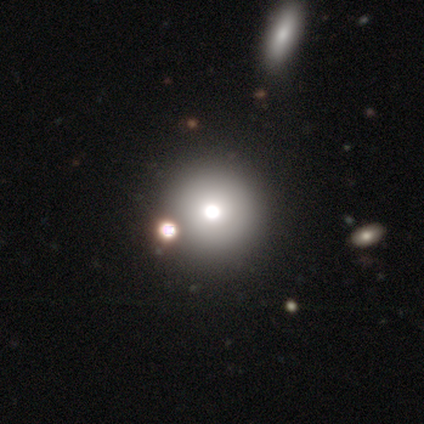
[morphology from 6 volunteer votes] Q: Smooth or featured?
A: smooth (100%)
Q: How rounded?
A: round (83%); runner-up: in between (17%)
Q: Merging?
A: none (83%); runner-up: merger (17%)